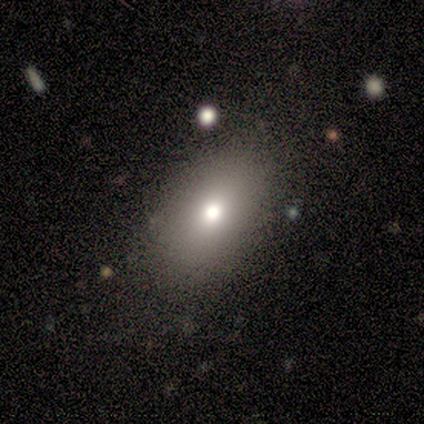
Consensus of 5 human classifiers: Q: Smooth or featured?
A: smooth (100%)
Q: How rounded?
A: in between (80%); runner-up: round (20%)
Q: Merging?
A: none (100%)